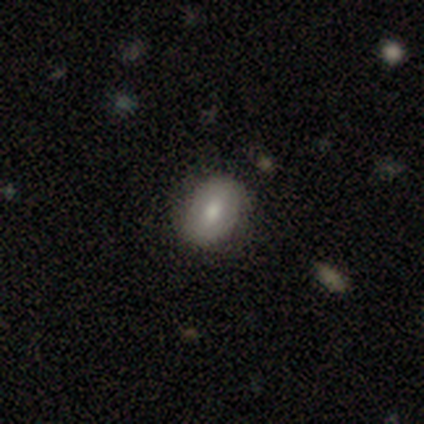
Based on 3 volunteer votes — smooth 67%, featured or disk 33%, star or artifact 0%. Down the decision tree: how rounded — round (100%); merging — none (100%).